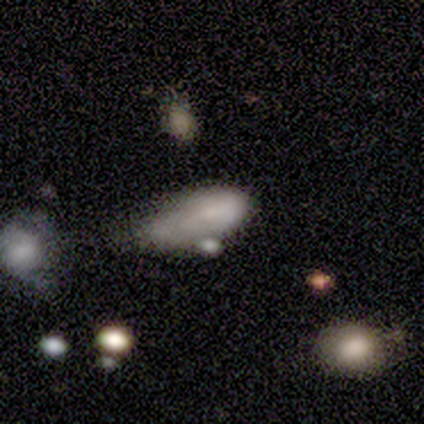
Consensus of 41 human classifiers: A smooth galaxy with no disk features (66%) that is in between round and cigar-shaped (93%).

Vote fractions:
- Smooth or featured? smooth: 66% / featured or disk: 20% / star or artifact: 15%
- How rounded? in between: 93% / cigar-shaped: 7% / round: 0%
- Merging? minor disturbance: 34% / major disturbance: 29% / merger: 20% / none: 17%